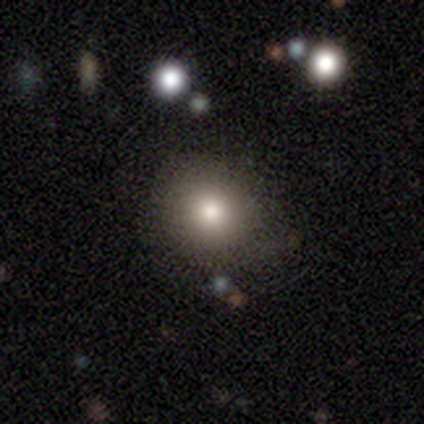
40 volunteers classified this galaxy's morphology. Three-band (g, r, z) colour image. It shows a smooth galaxy with no disk features (75%) that is round (90%). Merging: none (80%).